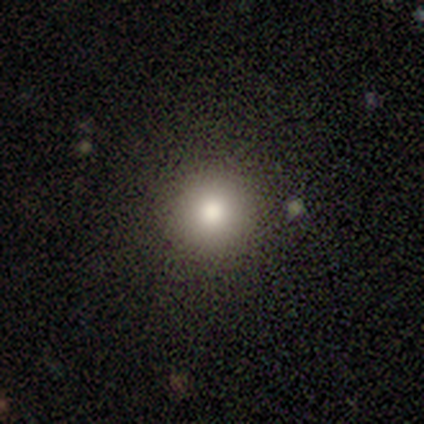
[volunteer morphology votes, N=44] Overall: smooth (77%). How rounded: round (97%). Merging: none (94%).